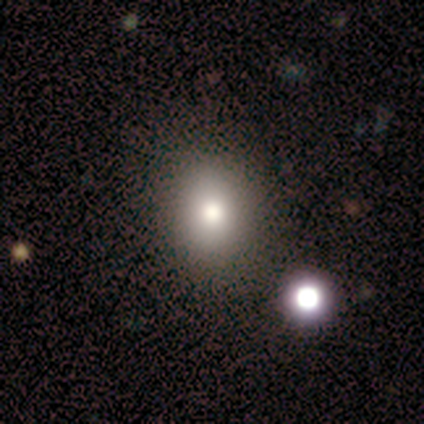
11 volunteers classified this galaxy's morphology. Smooth or featured: smooth — 64% (featured or disk — 18%)
How rounded: in between — 57% (round — 29%)
Merging: none — 89% (major disturbance — 11%)